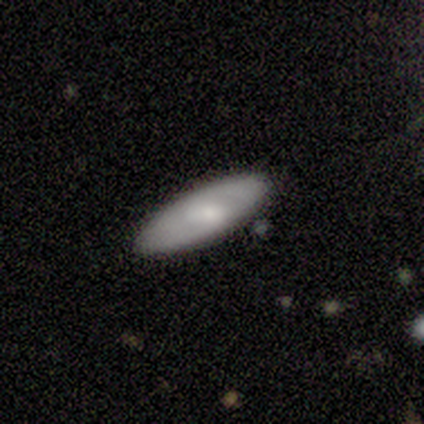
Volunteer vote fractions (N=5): smooth 60%, featured or disk 40%, star or artifact 0%. Down the decision tree: how rounded — in between (100%); merging — none (100%).